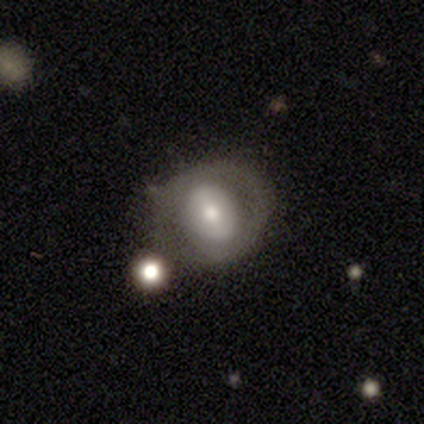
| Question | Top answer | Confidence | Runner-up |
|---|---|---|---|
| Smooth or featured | smooth | 60% | featured or disk (40%) |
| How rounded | in between | 100% | — |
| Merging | none | 60% | minor disturbance (20%) |